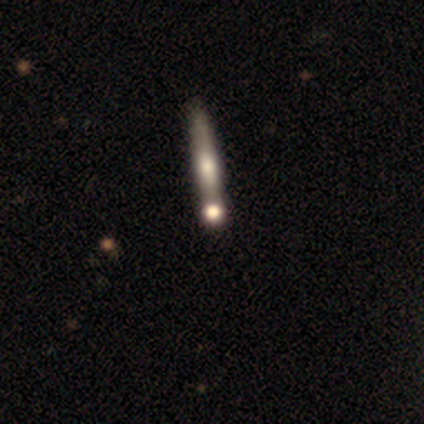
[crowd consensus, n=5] smooth_or_featured: featured or disk (p=0.80) [alt: smooth p=0.20]
disk_edge_on: yes (p=0.75) [alt: no p=0.25]
edge_on_bulge: rounded (p=0.67) [alt: none p=0.33]
merging: none (p=0.40) [alt: minor disturbance p=0.20]